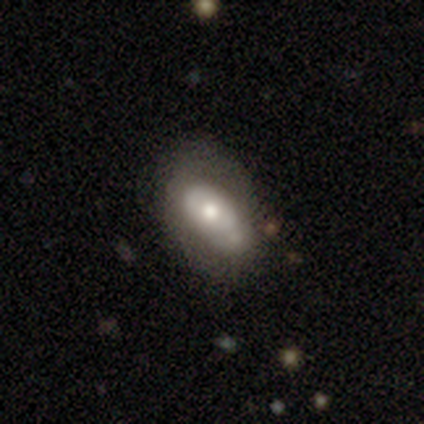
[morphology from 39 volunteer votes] This appears to be a smooth galaxy with no disk features (59%) that is in between round and cigar-shaped (91%). Merging: minor disturbance (46%).